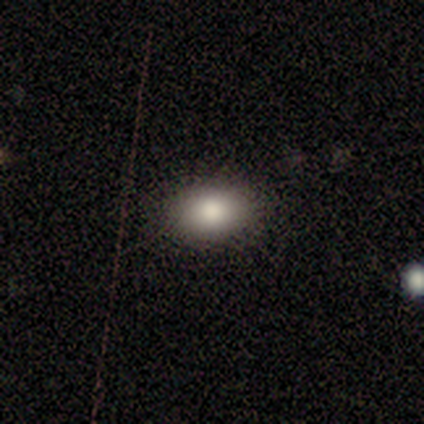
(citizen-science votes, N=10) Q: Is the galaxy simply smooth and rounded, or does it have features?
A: smooth — 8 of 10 (80%).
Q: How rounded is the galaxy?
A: in between — 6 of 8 (75%).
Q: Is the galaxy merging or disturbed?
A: none — 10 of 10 (100%).